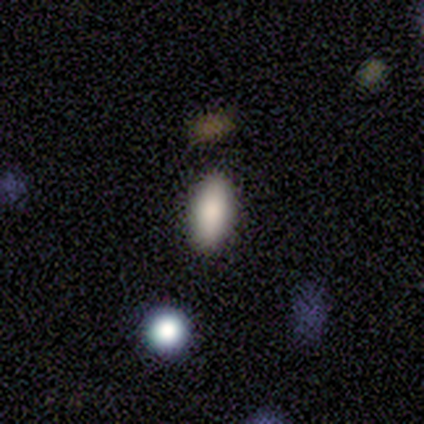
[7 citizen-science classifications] A smooth galaxy with no disk features (71%) that is in between round and cigar-shaped (80%).

Vote fractions:
- Smooth or featured? smooth: 71% / star or artifact: 29% / featured or disk: 0%
- How rounded? in between: 80% / round: 20% / cigar-shaped: 0%
- Merging? none: 80% / minor disturbance: 20% / major disturbance: 0% / merger: 0%